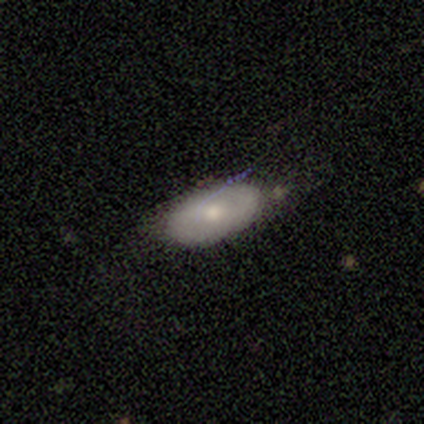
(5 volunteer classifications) Smooth or featured? smooth (80%)
How rounded? in between (75%)
Merging? none (40%, tied with minor disturbance)